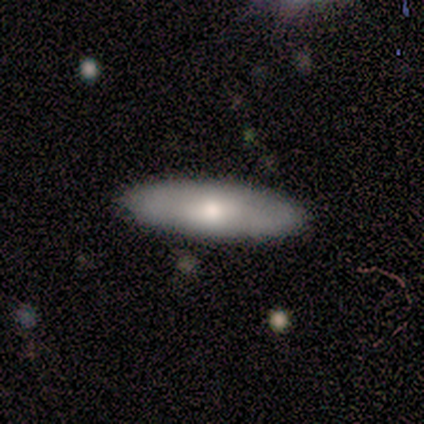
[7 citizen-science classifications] smooth 57%, featured or disk 43%, star or artifact 0%. Down the decision tree: how rounded — in between (50%, tied with cigar-shaped); merging — none (71%).